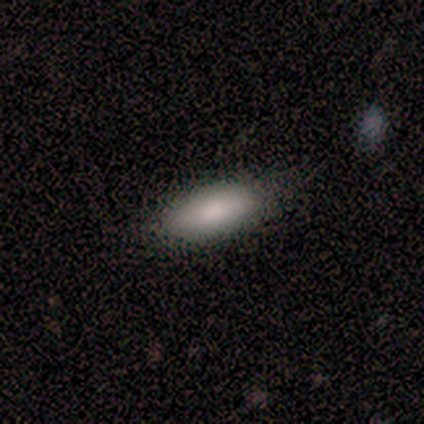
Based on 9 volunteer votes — This appears to be a smooth galaxy with no disk features (89%) that is in between round and cigar-shaped (88%). Merging: none (88%).